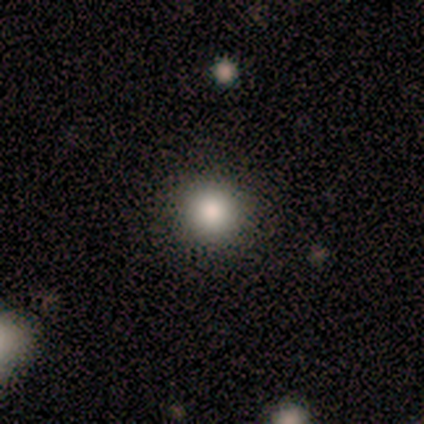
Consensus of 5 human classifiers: Smooth or featured? 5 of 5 (100%) said smooth. How rounded? 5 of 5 (100%) said round. Merging? 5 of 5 (100%) said none.